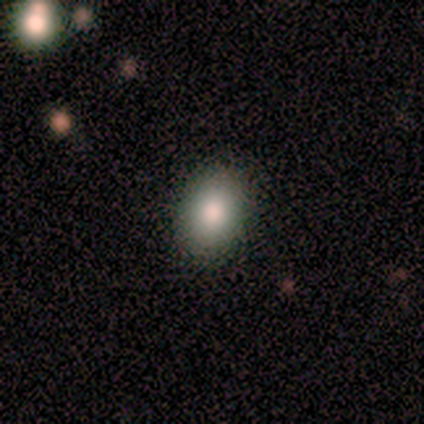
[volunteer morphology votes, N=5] Volunteers were most divided on "merging": none: 80%, major disturbance: 20%, minor disturbance: 0%, merger: 0%. More confident: smooth or featured — smooth (100%); how rounded — in between (100%).